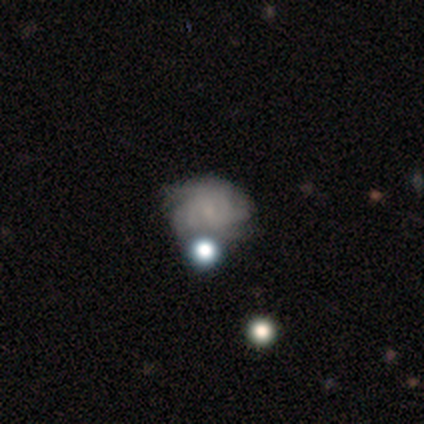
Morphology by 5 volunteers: A featured or disk galaxy (60%) with a weak bar (67%), tight (100%) spiral arms (67%) and a small central bulge (67%). Merging: none (60%).